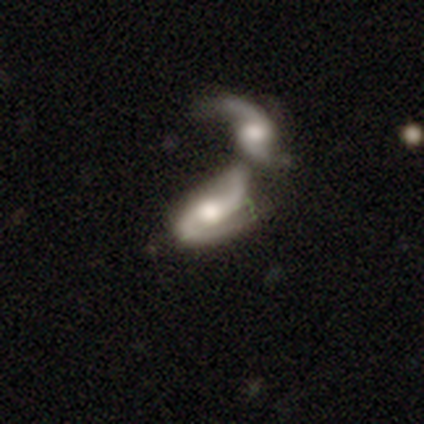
Smooth or featured? featured or disk (75%)
Edge-on disk? no (97%)
Bar? no (41%)
Spiral arms? yes (90%)
Spiral winding? loose (54%)
Spiral arm count? 2 (96%)
Bulge size? moderate (48%)
Merging? merger (90%)